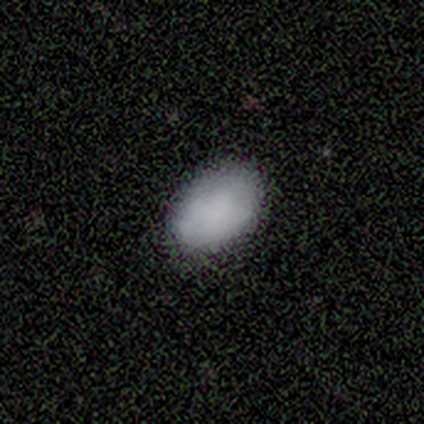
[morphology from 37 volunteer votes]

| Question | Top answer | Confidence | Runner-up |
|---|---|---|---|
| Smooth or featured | smooth | 86% | featured or disk (11%) |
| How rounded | in between | 94% | round (6%) |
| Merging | none | 83% | minor disturbance (14%) |